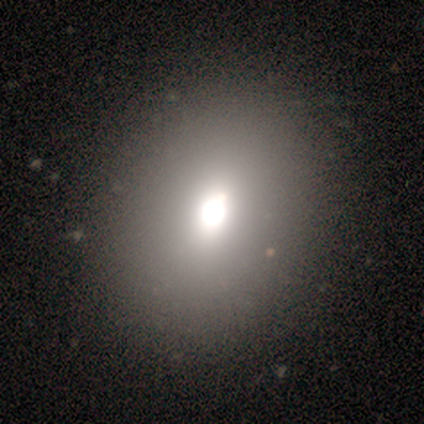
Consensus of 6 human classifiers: Smooth or featured? 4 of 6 (67%) said smooth. How rounded? 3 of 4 (75%) said in between. Merging? 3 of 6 (50%) said none.